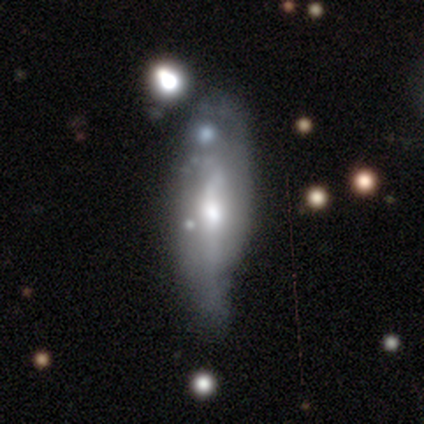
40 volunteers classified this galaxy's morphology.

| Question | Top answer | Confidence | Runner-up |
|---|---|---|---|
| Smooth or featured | featured or disk | 57% | smooth (38%) |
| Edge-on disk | no | 74% | yes (26%) |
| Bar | no | 47% | weak (41%) |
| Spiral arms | yes | 53% | no (47%) |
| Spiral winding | medium | 78% | loose (22%) |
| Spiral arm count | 2 | 56% | can't tell (44%) |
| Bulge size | moderate | 53% | small (29%) |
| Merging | minor disturbance | 26% | none (24%) |